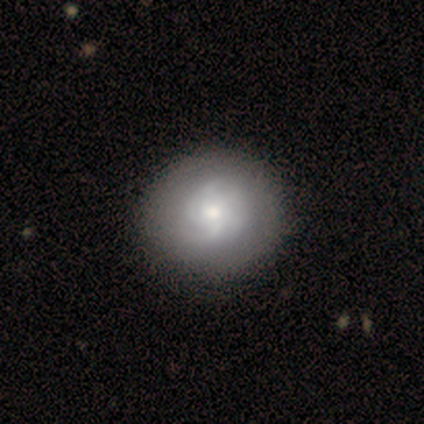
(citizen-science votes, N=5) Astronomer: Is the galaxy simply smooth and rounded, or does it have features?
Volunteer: featured or disk — 60% (runner-up: smooth, 40%).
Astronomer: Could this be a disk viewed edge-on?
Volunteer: no — 100%.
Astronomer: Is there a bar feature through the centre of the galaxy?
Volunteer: no — 100%.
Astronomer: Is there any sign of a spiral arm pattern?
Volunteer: yes — 67%.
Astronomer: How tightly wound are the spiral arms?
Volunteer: tight — 100%.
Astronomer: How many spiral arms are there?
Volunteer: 4 — 50%, tied with can't tell at 50%.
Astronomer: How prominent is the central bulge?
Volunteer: small — 67%.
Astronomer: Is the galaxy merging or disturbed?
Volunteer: none — 80%.